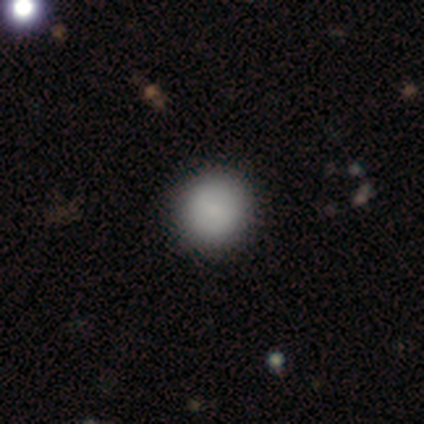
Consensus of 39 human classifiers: A smooth galaxy with no disk features (82%) that is round (97%). Merging: none (91%).